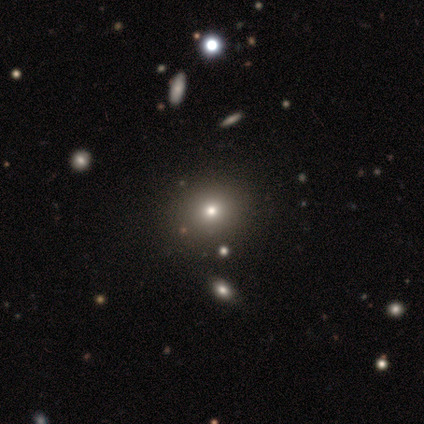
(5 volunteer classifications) A star or artifact, not a galaxy (60%).